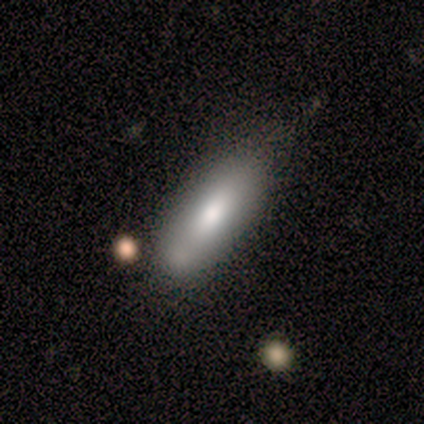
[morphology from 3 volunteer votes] Overall: smooth (67%; featured or disk 33%). How rounded: in between (50%, tied with cigar-shaped). Merging: merger (67%; none 33%).